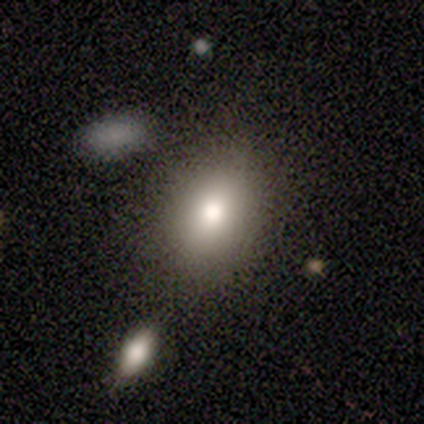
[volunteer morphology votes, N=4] smooth 75%, star or artifact 25%, featured or disk 0%. Down the decision tree: how rounded — in between (100%); merging — none (33%, tied with major disturbance and merger).